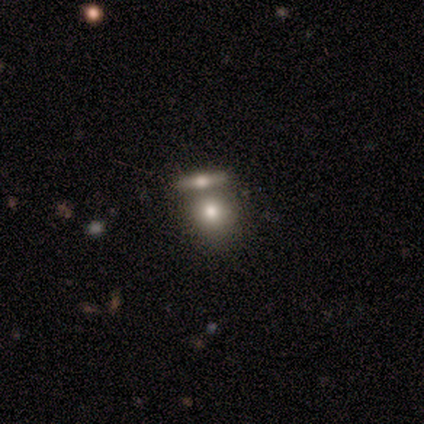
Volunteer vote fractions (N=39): Overall: smooth (67%). How rounded: round (69%). Merging: merger (50%; none 36%).